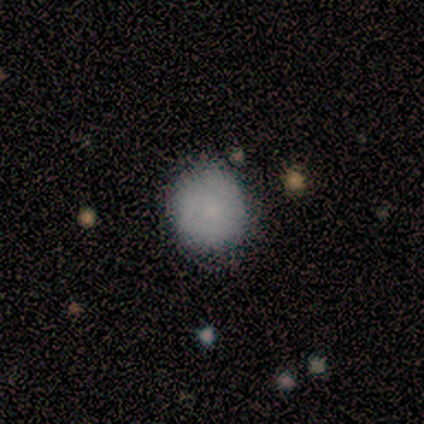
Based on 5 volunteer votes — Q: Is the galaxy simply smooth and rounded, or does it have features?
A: smooth — 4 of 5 (80%).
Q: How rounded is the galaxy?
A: round — 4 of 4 (100%).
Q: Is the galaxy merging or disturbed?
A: none — 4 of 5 (80%).